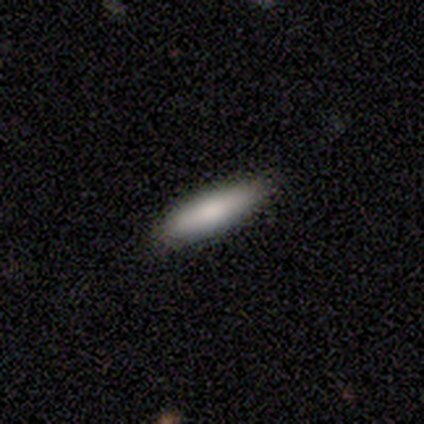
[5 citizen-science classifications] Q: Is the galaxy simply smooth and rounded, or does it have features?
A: smooth — 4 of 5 (80%).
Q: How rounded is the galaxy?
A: cigar-shaped — 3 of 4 (75%).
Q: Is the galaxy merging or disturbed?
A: none — 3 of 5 (60%).